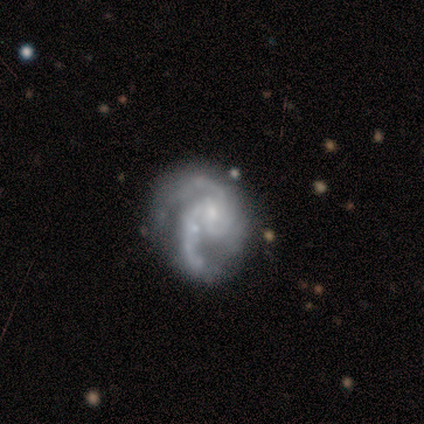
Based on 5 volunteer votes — Smooth or featured? 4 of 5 (80%) said featured or disk. Edge-on disk? 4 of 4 (100%) said no. Bar? 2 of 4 (50%, tied with no) said weak. Spiral arms? 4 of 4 (100%) said yes. Spiral winding? 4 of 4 (100%) said medium. Spiral arm count? 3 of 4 (75%) said 2. Bulge size? 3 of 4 (75%) said small. Merging? 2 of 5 (40%, tied with major disturbance) said none.